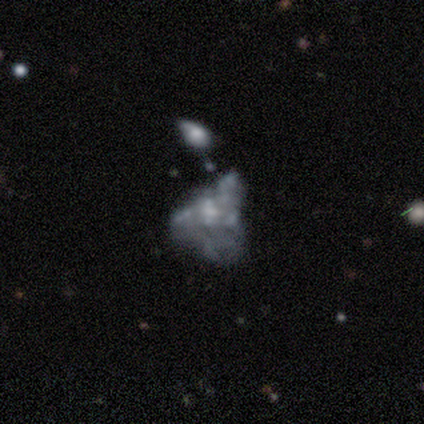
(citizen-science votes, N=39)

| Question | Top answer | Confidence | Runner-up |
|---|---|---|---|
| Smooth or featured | featured or disk | 74% | star or artifact (15%) |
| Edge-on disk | no | 100% | — |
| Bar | no | 86% | weak (14%) |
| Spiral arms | no | 97% | yes (3%) |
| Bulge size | none | 62% | small (28%) |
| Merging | major disturbance | 36% | none (27%) |